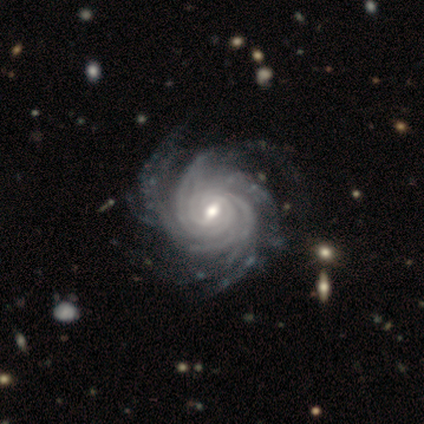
Smooth or featured? featured or disk (97%)
Edge-on disk? no (100%)
Bar? weak (73%)
Spiral arms? yes (100%)
Spiral winding? tight (86%)
Spiral arm count? more than 4 (59%)
Bulge size? moderate (62%)
Merging? none (46%)